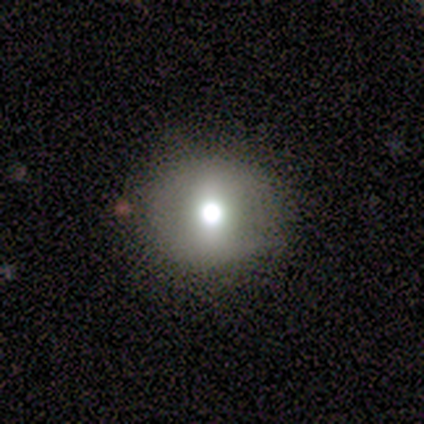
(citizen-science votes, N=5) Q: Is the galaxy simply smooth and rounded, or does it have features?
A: smooth — 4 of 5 (80%).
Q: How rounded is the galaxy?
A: round — 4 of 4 (100%).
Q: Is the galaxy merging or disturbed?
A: none — 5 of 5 (100%).